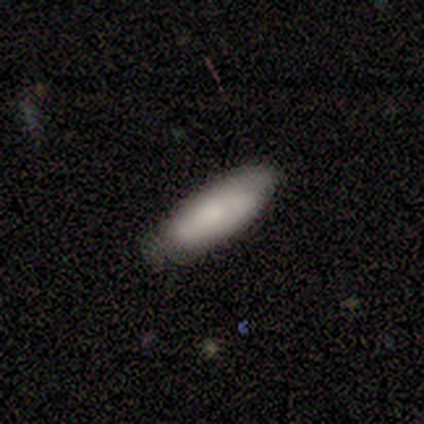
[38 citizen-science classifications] Overall: smooth (71%). How rounded: in between (63%; cigar-shaped 33%). Merging: none (62%; minor disturbance 35%).